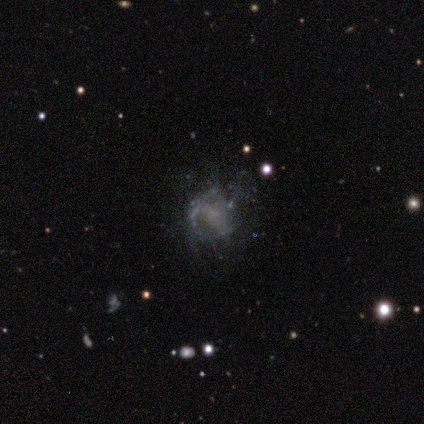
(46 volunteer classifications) This is likely a featured or disk galaxy (70%). It is clearly not viewed edge-on (100%). Bar: likely no (72%). Spiral arm pattern: possibly yes (59%). Spiral arm count: likely can't tell (74%). Spiral winding: marginally medium (42%). Central bulge: possibly none (59%). Merging: possibly none (52%).